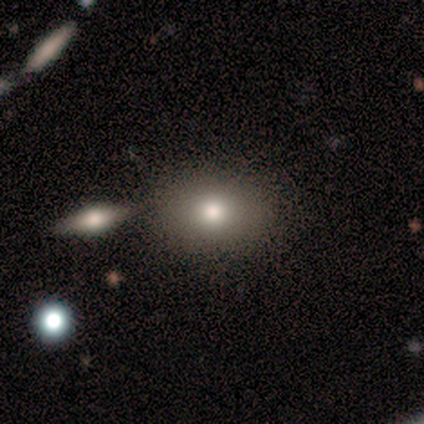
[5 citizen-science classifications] Overall: smooth (100%). How rounded: in between (100%). Merging: none (100%).